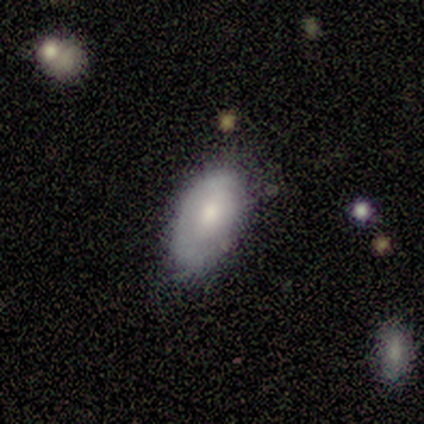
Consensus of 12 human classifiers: Smooth or featured? 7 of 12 (58%) said smooth. How rounded? 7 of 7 (100%) said in between. Merging? 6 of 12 (50%) said minor disturbance.